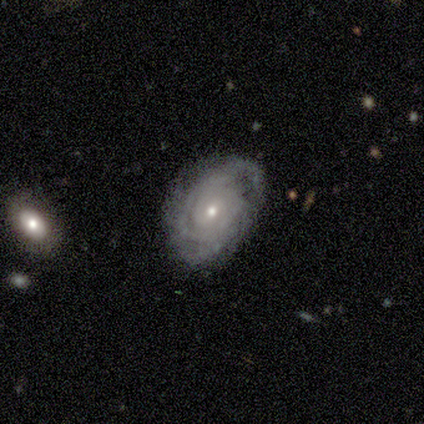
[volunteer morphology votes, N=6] featured or disk 100%, smooth 0%, star or artifact 0%. Down the decision tree: edge-on disk — no (100%); bar — no (67%); spiral arms — yes (100%); spiral arm count — can't tell (67%); spiral winding — tight (83%); bulge size — moderate (50%, tied with small); merging — none (67%).